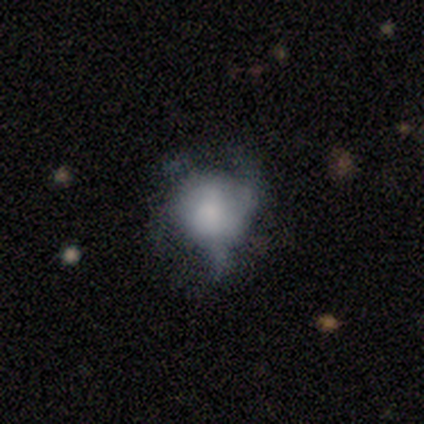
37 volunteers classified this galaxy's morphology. Smooth or featured?
  - smooth: 51% *
  - featured or disk: 35%
  - star or artifact: 14%
How rounded?
  - round: 74% *
  - in between: 26%
  - cigar-shaped: 0%
Merging?
  - major disturbance: 44% *
  - none: 25%
  - minor disturbance: 25%
  - merger: 6%